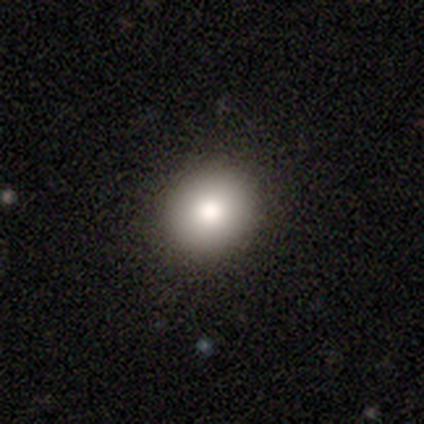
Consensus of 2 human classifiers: smooth_or_featured: smooth (p=1.00)
how_rounded: round (p=0.50) [tied with: in between p=0.50]
merging: none (p=1.00)